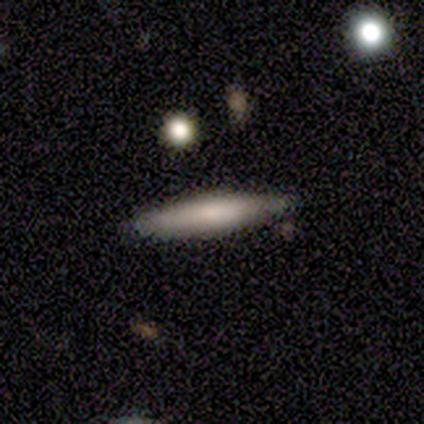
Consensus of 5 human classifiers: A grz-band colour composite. It shows a smooth galaxy with no disk features (100%) that is cigar-shaped (100%). Merging: none (60%).